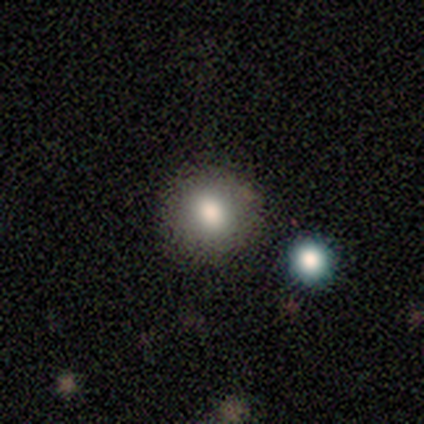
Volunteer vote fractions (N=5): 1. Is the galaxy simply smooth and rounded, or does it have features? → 80% smooth, 20% featured or disk, 0% star or artifact.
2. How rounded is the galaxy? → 75% round, 25% in between, 0% cigar-shaped.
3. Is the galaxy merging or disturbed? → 80% none, 20% minor disturbance, 0% major disturbance, 0% merger.